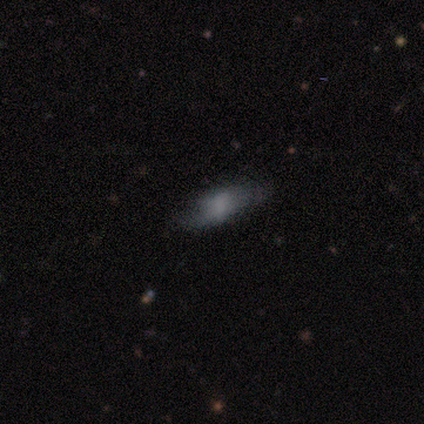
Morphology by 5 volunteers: smooth 60%, star or artifact 40%, featured or disk 0%. Down the decision tree: how rounded — cigar-shaped (100%); merging — none (33%, tied with major disturbance and merger).